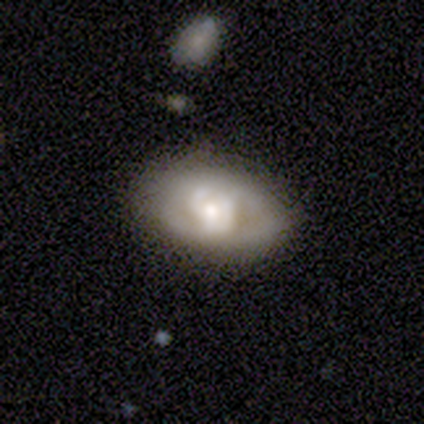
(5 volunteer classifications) smooth 40% (tied), featured or disk 40% (tied), star or artifact 20%. Down the decision tree: how rounded — in between (100%); merging — none (50%, tied with minor disturbance).